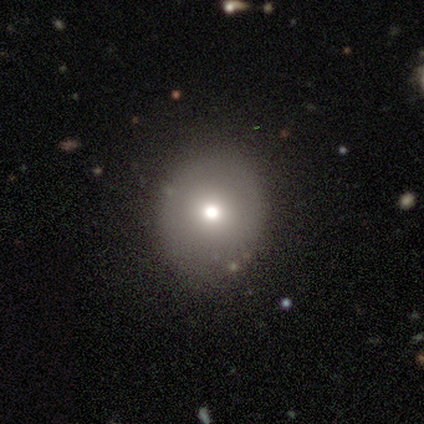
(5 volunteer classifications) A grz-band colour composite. It shows a smooth galaxy with no disk features (60%) that is round (67%). Merging: none (100%).